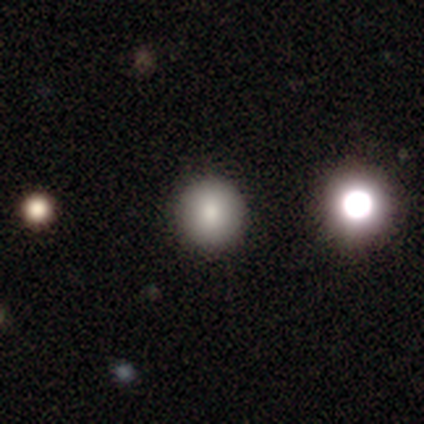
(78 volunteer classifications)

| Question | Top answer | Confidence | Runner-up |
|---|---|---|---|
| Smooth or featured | smooth | 78% | featured or disk (12%) |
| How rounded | round | 97% | in between (3%) |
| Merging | none | 47% | merger (7%) |